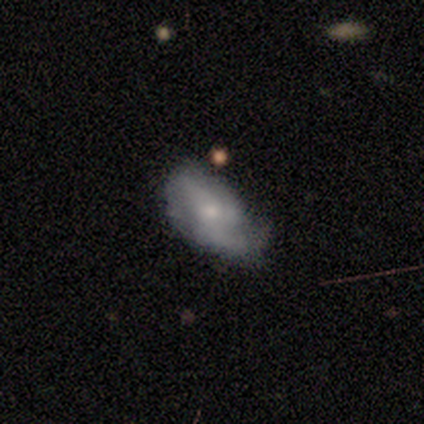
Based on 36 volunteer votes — Smooth or featured?
  - featured or disk: 67% *
  - smooth: 31%
  - star or artifact: 3%
Edge-on disk?
  - no: 92% *
  - yes: 8%
Bar?
  - no: 77% *
  - weak: 23%
  - strong: 0%
Spiral arms?
  - yes: 77% *
  - no: 23%
Spiral winding?
  - loose: 65% *
  - medium: 35%
  - tight: 0%
Spiral arm count?
  - 2: 41% *
  - can't tell: 24%
  - 1: 18%
  - 3: 18%
  - 4: 0%
  - more than 4: 0%
Bulge size?
  - small: 77% *
  - moderate: 23%
  - dominant: 0%
  - large: 0%
  - none: 0%
Merging?
  - none: 46% *
  - minor disturbance: 34%
  - major disturbance: 20%
  - merger: 0%